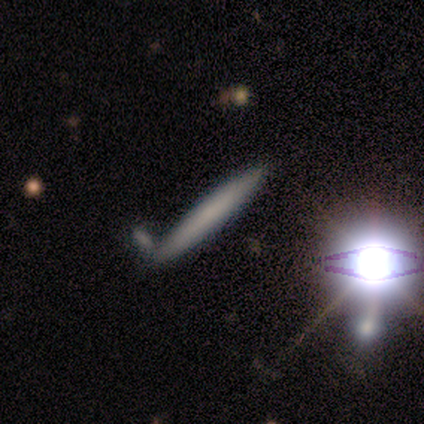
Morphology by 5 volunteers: Q: Smooth or featured?
A: star or artifact (60%); runner-up: smooth (20%)